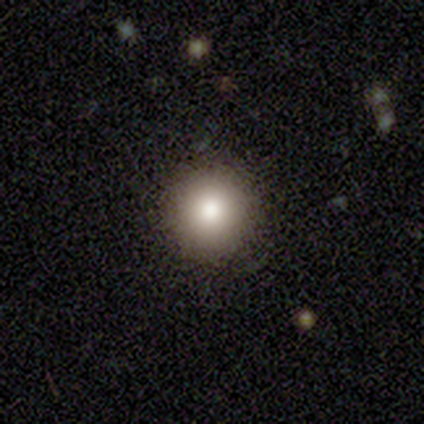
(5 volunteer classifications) A star or artifact, not a galaxy (60%).

Vote fractions:
- Smooth or featured? star or artifact: 60% / smooth: 40% / featured or disk: 0%